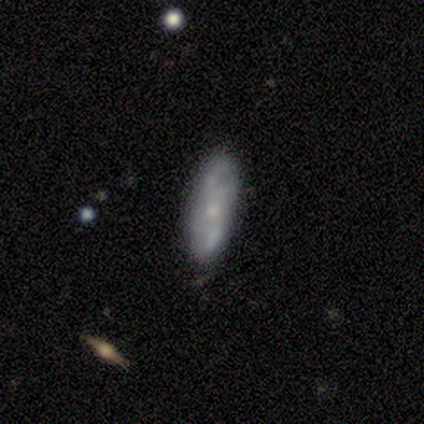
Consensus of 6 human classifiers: Smooth or featured?
  - smooth: 50% * (tied)
  - featured or disk: 50% * (tied)
  - star or artifact: 0%
How rounded?
  - cigar-shaped: 67% *
  - in between: 33%
  - round: 0%
Merging?
  - none: 100% *
  - minor disturbance: 0%
  - major disturbance: 0%
  - merger: 0%